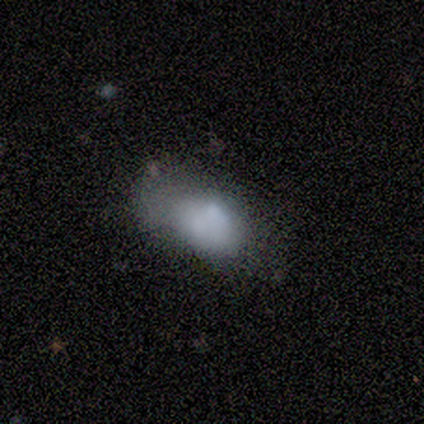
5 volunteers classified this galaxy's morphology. Smooth or featured?
  - smooth: 40% * (tied)
  - featured or disk: 40% * (tied)
  - star or artifact: 20%
How rounded?
  - in between: 100% *
  - round: 0%
  - cigar-shaped: 0%
Merging?
  - minor disturbance: 50% *
  - major disturbance: 25%
  - merger: 25%
  - none: 0%